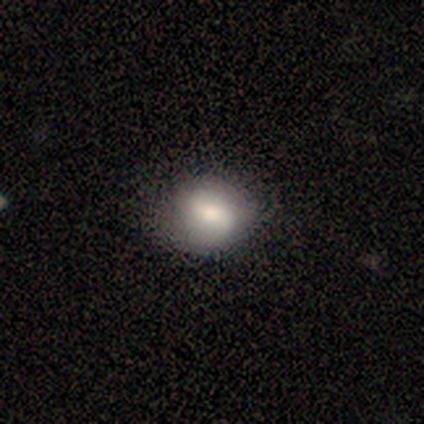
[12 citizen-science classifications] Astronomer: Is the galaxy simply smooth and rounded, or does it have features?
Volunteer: smooth — 75%.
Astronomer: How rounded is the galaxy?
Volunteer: round — 67%.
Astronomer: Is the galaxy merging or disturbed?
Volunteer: none — 83%.